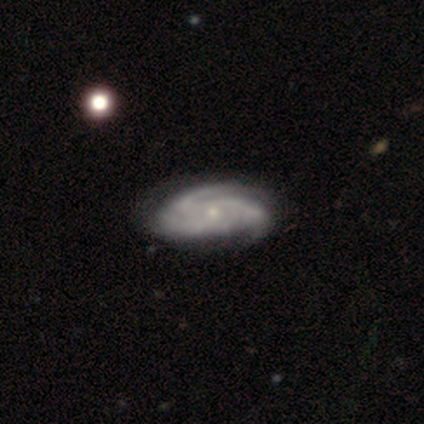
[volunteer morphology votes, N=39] smooth_or_featured: featured or disk (p=0.95) [alt: smooth p=0.05]
disk_edge_on: no (p=0.97) [alt: yes p=0.03]
bar: no (p=0.92) [alt: weak p=0.08]
has_spiral_arms: yes (p=1.00)
spiral_winding: tight (p=0.58) [alt: medium p=0.42]
spiral_arm_count: 3 (p=0.64) [alt: can't tell p=0.17]
bulge_size: small (p=0.75) [alt: moderate p=0.22]
merging: none (p=0.59) [alt: minor disturbance p=0.10]